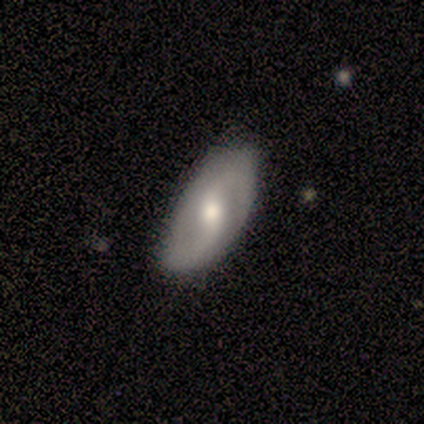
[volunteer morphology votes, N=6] A featured or disk galaxy (67%) with no bar (75%), 2 (100%) loose (75%) spiral arms (100%) and a large central bulge (50%). Merging: none (67%).